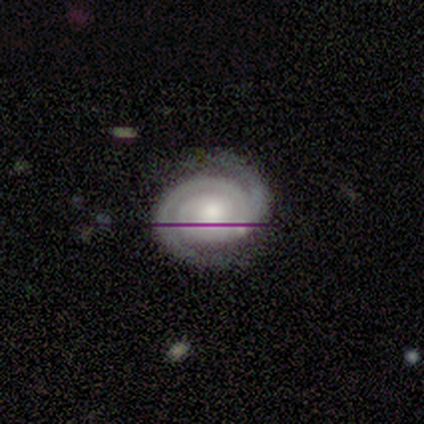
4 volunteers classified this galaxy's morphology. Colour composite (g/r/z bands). It shows a featured or disk galaxy (100%) with no bar (75%), 2 (50%) tight (75%) spiral arms (100%) and a moderate central bulge (75%). Merging: none (75%).